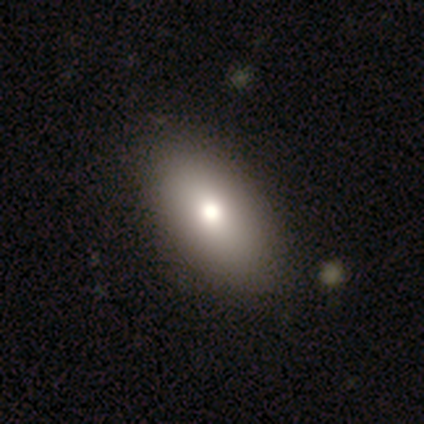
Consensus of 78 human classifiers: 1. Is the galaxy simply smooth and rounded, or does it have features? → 85% smooth, 10% featured or disk, 5% star or artifact.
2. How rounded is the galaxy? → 94% in between, 5% round, 2% cigar-shaped.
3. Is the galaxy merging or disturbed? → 51% none, 12% minor disturbance, 1% merger, 0% major disturbance.